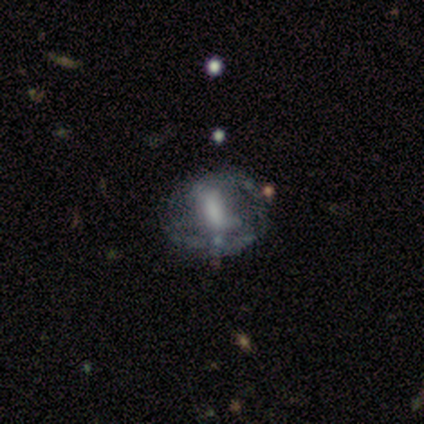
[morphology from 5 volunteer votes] Smooth or featured? featured or disk (60%)
Edge-on disk? no (100%)
Bar? weak (67%)
Spiral arms? no (67%)
Bulge size? moderate (33%, tied with small and none)
Merging? none (50%)